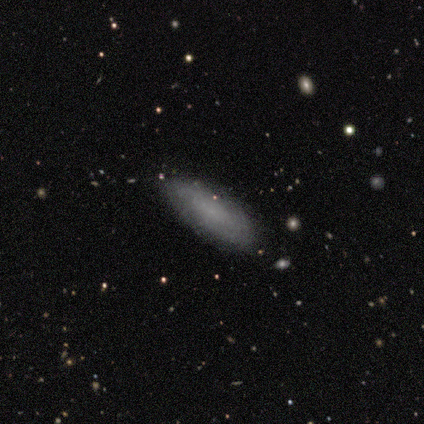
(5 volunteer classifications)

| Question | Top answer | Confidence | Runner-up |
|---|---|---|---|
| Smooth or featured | smooth | 100% | — |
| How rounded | in between | 80% | cigar-shaped (20%) |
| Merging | none | 100% | — |